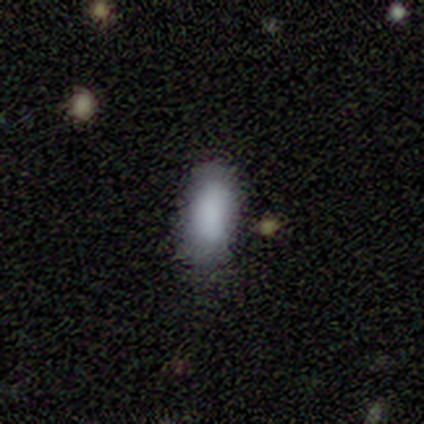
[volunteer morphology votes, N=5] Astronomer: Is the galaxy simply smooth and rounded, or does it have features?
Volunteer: smooth — 80%.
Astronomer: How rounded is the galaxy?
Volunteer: in between — 100%.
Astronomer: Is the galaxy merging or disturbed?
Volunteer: none — 80%.